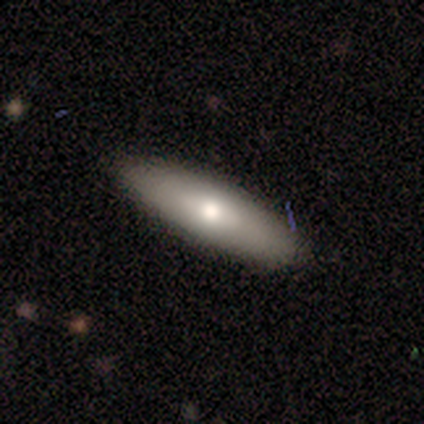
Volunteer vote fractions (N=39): Smooth or featured?
  - smooth: 62% *
  - featured or disk: 28%
  - star or artifact: 10%
How rounded?
  - cigar-shaped: 58% *
  - in between: 42%
  - round: 0%
Merging?
  - none: 97% *
  - minor disturbance: 3%
  - major disturbance: 0%
  - merger: 0%